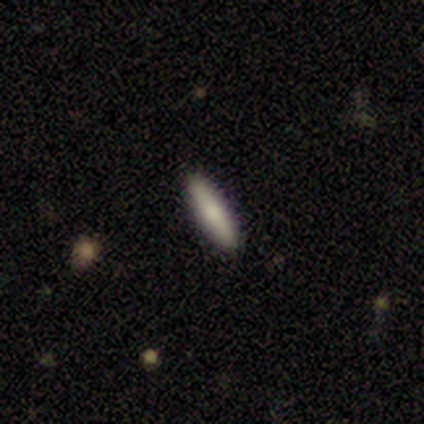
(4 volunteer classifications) Volunteers were most divided on "how rounded": in between: 67%, cigar-shaped: 33%, round: 0%. More confident: merging — none (100%); smooth or featured — smooth (75%).